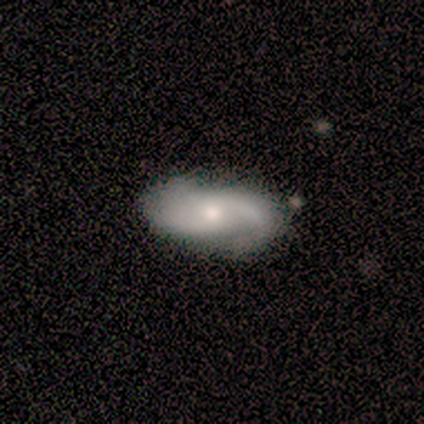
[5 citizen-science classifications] Morphology: type=smooth (60%); roundness=in between (67%); merging=none (100%).